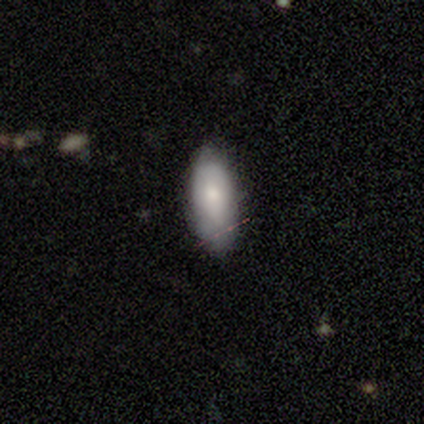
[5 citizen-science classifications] Smooth or featured: smooth — 60% (featured or disk — 40%)
How rounded: in between — 67% (cigar-shaped — 33%)
Merging: none — 80% (minor disturbance — 20%)